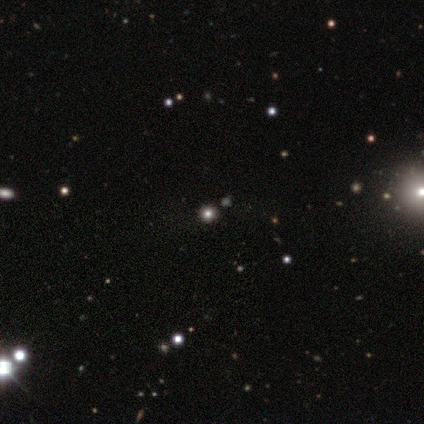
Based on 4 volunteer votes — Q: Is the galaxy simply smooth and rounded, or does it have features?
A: star or artifact — 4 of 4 (100%).